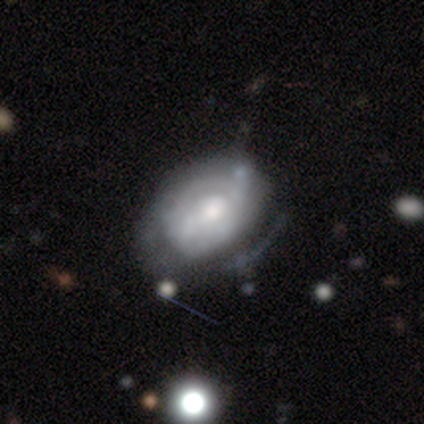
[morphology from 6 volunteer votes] Overall: featured or disk (83%). Edge-on disk: no (60%; yes 40%). Bar: weak (67%; no 33%). Spiral arms: yes (67%; no 33%). Spiral arm count: 1 (100%). Spiral winding: tight (50%, tied with medium). Bulge size: moderate (33%, tied with small and none). Merging: minor disturbance (67%; none 33%).